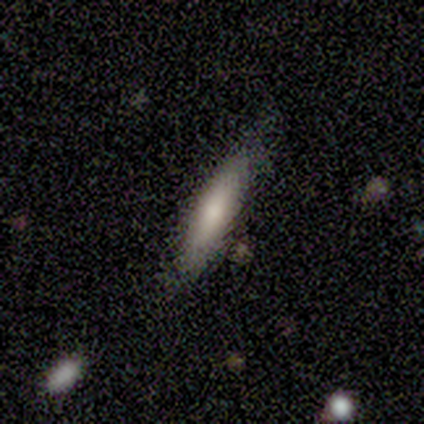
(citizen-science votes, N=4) Smooth or featured? 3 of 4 (75%) said featured or disk. Edge-on disk? 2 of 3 (67%) said yes. Edge-on bulge? 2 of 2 (100%) said rounded. Merging? 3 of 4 (75%) said none.